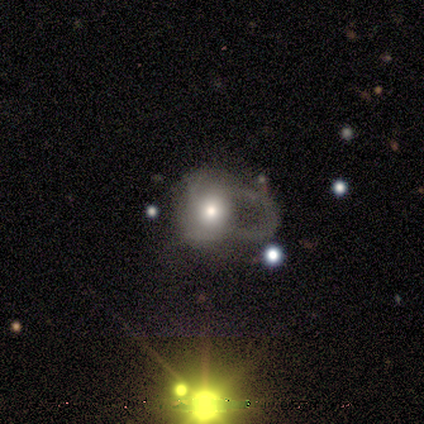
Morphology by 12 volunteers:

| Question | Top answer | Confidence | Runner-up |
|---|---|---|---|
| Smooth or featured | featured or disk | 67% | smooth (17%) |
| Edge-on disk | no | 88% | yes (12%) |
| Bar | no | 100% | — |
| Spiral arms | no | 100% | — |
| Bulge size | moderate | 86% | dominant (14%) |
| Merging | major disturbance | 70% | none (20%) |